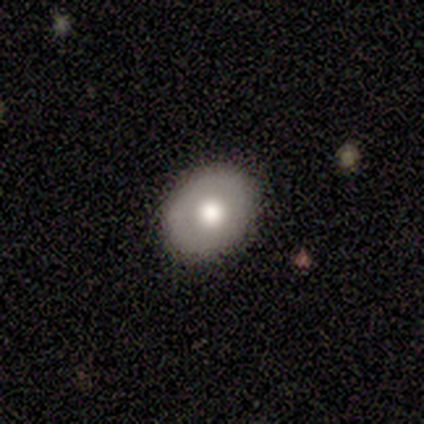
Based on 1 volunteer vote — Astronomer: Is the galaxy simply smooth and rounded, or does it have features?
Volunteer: smooth — 100%.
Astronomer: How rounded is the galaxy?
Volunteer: in between — 100%.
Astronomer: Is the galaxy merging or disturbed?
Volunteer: none — 100%.